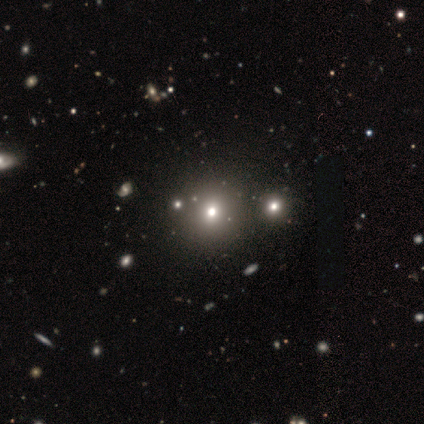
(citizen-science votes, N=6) Smooth or featured? 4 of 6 (67%) said star or artifact.